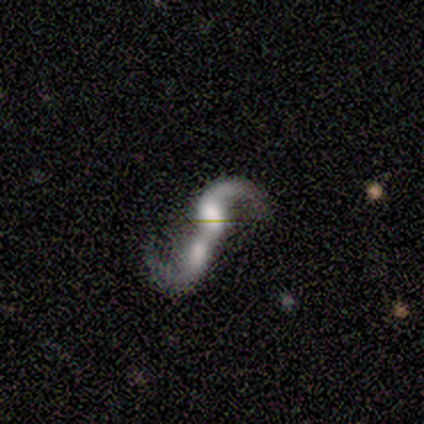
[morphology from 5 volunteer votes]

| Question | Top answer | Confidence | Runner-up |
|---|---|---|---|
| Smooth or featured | featured or disk | 100% | — |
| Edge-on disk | no | 100% | — |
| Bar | no | 60% | strong (40%) |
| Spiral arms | yes | 100% | — |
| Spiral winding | loose | 100% | — |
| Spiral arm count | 2 | 60% | 1 (20%) |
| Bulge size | moderate | 80% | large (20%) |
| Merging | merger | 80% | none (20%) |